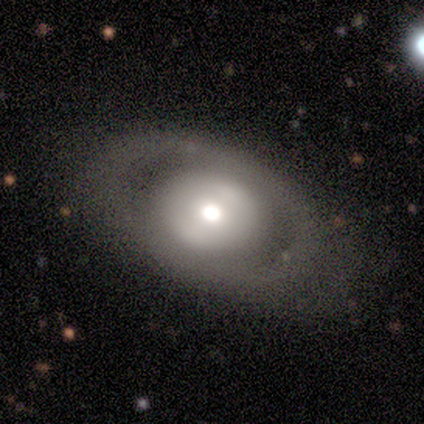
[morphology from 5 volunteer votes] Smooth or featured? featured or disk (60%)
Edge-on disk? no (100%)
Bar? strong (33%, tied with weak and no)
Spiral arms? no (100%)
Bulge size? moderate (67%)
Merging? none (60%)